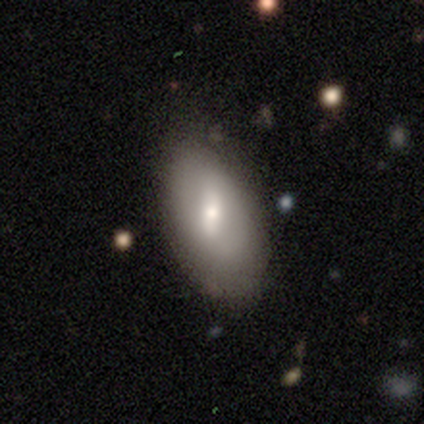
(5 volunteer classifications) A smooth galaxy with no disk features (80%) that is in between round and cigar-shaped (100%). Merging: minor disturbance (60%).